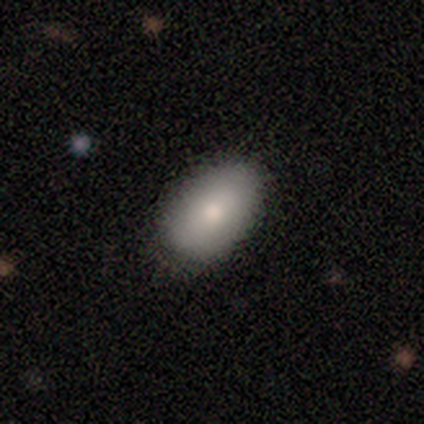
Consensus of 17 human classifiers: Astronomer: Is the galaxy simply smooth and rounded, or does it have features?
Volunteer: smooth — 88%.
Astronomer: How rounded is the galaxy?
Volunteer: in between — 100%.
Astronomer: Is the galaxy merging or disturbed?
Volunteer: none — 88%.